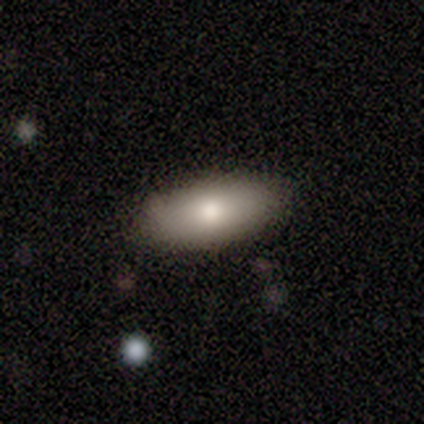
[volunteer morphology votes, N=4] Smooth or featured? smooth (100%)
How rounded? in between (100%)
Merging? none (75%)